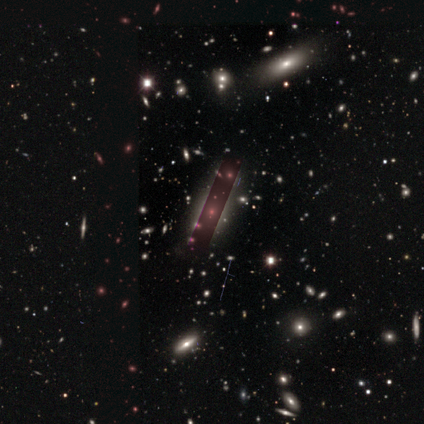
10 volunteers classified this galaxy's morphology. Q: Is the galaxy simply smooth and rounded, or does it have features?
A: star or artifact — 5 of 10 (50%).